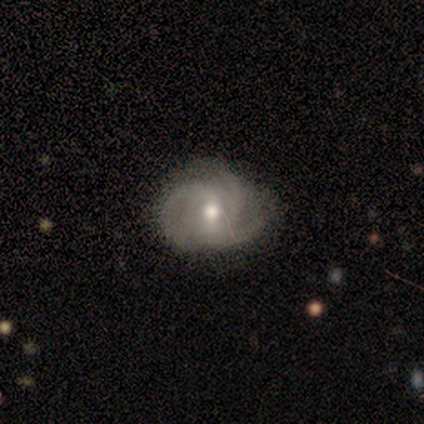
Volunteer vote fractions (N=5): This is likely a featured or disk galaxy (60%). It is clearly not viewed edge-on (100%). Bar: clearly no (100%). Spiral arm pattern: clearly yes (100%). Spiral arm count: marginally 2 (33%, tied with 3 and can't tell). Spiral winding: marginally tight (33%, tied with medium and loose). Central bulge: likely moderate (67%). Merging: possibly none (50%, tied with major disturbance).